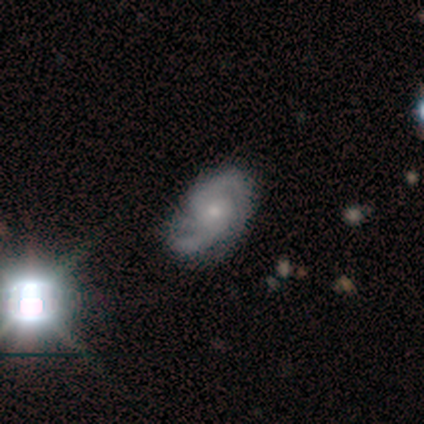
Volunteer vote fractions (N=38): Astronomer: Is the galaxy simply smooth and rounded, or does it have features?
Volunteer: featured or disk — 74%.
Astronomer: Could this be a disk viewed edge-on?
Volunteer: no — 100%.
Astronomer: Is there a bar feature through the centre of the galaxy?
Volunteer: no — 61% (runner-up: weak, 36%).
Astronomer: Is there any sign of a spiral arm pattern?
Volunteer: yes — 93%.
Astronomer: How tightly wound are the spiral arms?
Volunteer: medium — 38% (runner-up: tight, 35%).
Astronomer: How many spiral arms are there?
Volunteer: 2 — 65%.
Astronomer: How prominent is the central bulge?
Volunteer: small — 61% (runner-up: moderate, 36%).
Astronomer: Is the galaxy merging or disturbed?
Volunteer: none — 52% (runner-up: minor disturbance, 28%).